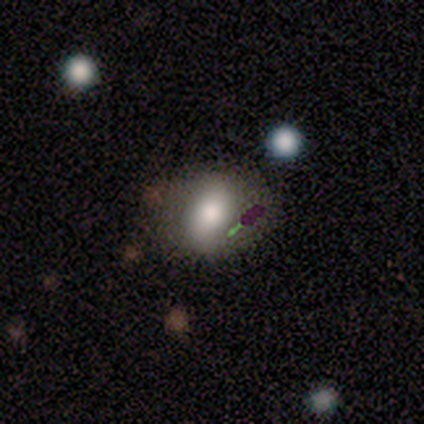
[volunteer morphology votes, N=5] Smooth or featured: smooth — 40% (tied with featured or disk — 40%)
How rounded: in between — 100%
Merging: none — 75% (minor disturbance — 25%)